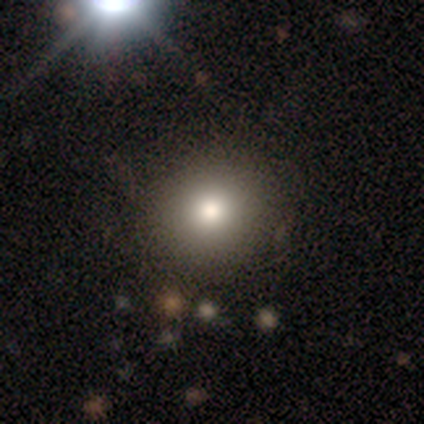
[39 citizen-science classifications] Smooth or featured?
  - smooth: 79% *
  - featured or disk: 10%
  - star or artifact: 10%
How rounded?
  - round: 90% *
  - in between: 10%
  - cigar-shaped: 0%
Merging?
  - none: 66% *
  - minor disturbance: 6%
  - merger: 3%
  - major disturbance: 0%